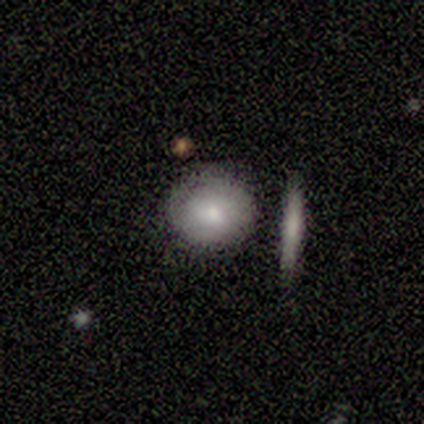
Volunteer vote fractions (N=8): Smooth or featured? smooth (75%)
How rounded? round (100%)
Merging? none (62%)